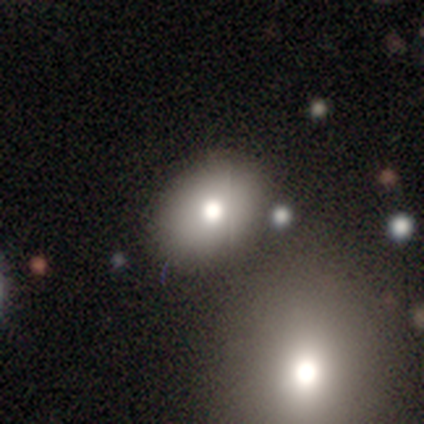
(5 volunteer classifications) smooth_or_featured: smooth (p=0.80) [alt: star or artifact p=0.20]
how_rounded: in between (p=1.00)
merging: none (p=0.50) [alt: minor disturbance p=0.25]